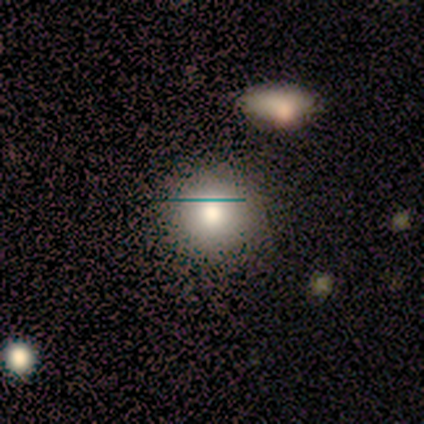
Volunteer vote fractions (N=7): Smooth or featured? 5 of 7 (71%) said smooth. How rounded? 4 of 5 (80%) said round. Merging? 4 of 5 (80%) said none.